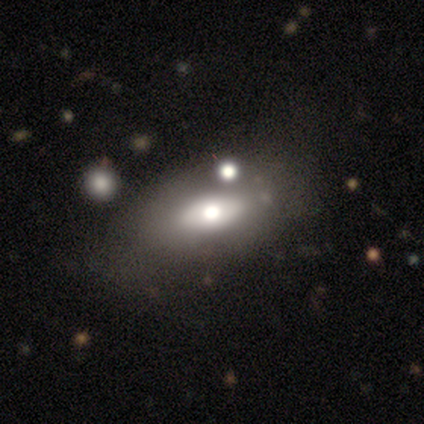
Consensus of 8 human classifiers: A smooth galaxy with no disk features (38%, tied with featured or disk) that is in between round and cigar-shaped (100%).

Vote fractions:
- Smooth or featured? smooth: 38% (tied) / featured or disk: 38% (tied) / star or artifact: 25%
- How rounded? in between: 100% / round: 0% / cigar-shaped: 0%
- Merging? none: 50% / major disturbance: 33% / minor disturbance: 17% / merger: 0%